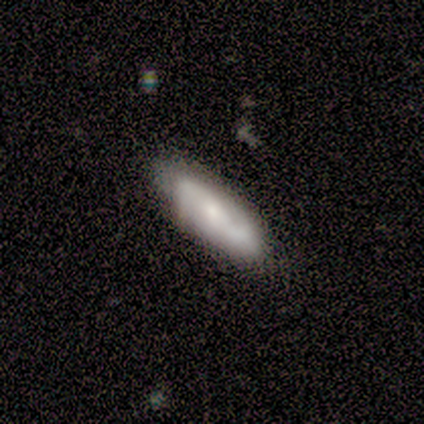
This appears to be a smooth galaxy with no disk features (80%) that is cigar-shaped (100%). Merging: none (60%).